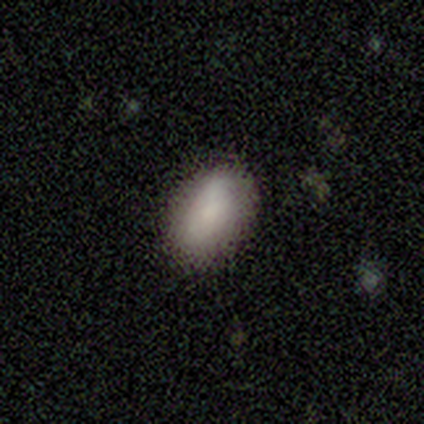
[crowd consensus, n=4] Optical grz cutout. It shows a smooth galaxy with no disk features (75%) that is in between round and cigar-shaped (67%). Merging: none (75%).